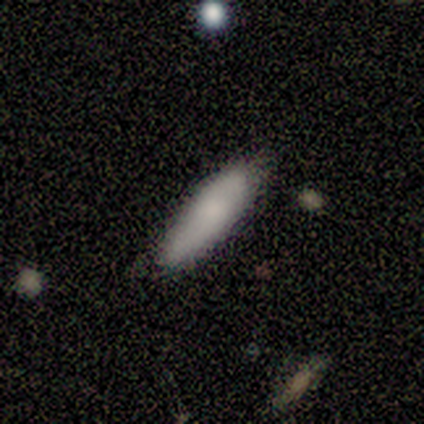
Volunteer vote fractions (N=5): Smooth or featured? 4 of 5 (80%) said smooth. How rounded? 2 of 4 (50%, tied with cigar-shaped) said in between. Merging? 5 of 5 (100%) said none.